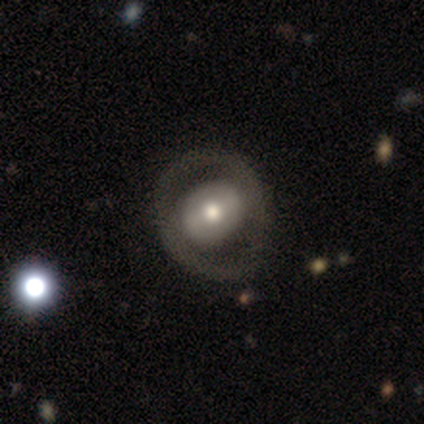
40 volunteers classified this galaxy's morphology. This is likely a featured or disk galaxy (60%). It is clearly not viewed edge-on (96%). Bar: possibly no (52%). Spiral arm pattern: clearly no (96%). Central bulge: likely moderate (70%). Merging: possibly none (54%).